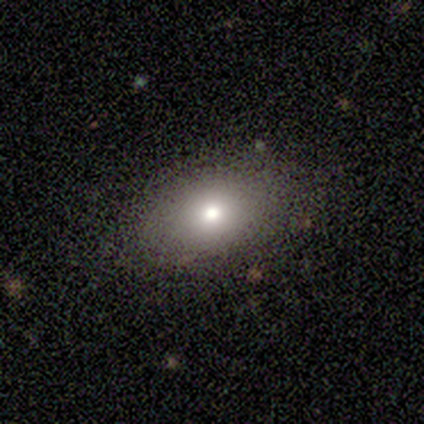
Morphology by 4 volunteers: Smooth or featured: smooth — 75% (featured or disk — 25%)
How rounded: in between — 100%
Merging: none — 100%